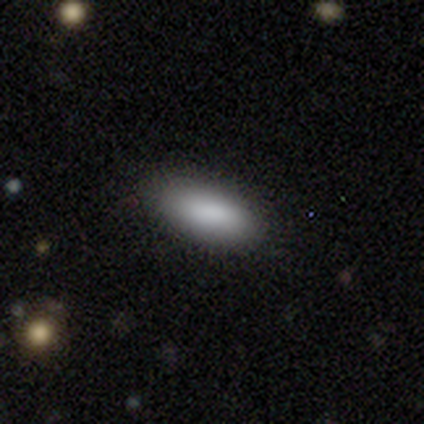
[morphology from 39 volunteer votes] Smooth or featured? smooth (92%)
How rounded? in between (81%)
Merging? none (81%)